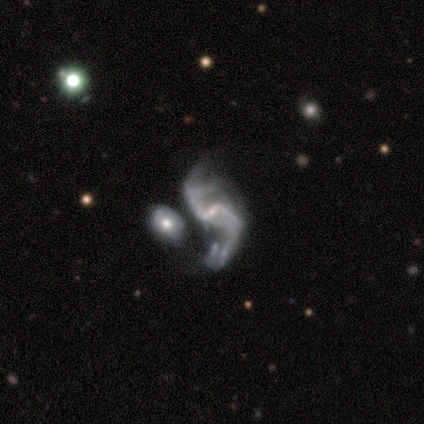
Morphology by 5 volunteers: A featured or disk galaxy (100%) with no bar (75%), 2 (75%) medium (50%) spiral arms (100%) and a small central bulge (75%).

Vote fractions:
- Smooth or featured? featured or disk: 100% / smooth: 0% / star or artifact: 0%
- Edge-on disk? no: 80% / yes: 20%
- Bar? no: 75% / weak: 25% / strong: 0%
- Spiral arms? yes: 100% / no: 0%
- Spiral winding? medium: 50% / tight: 25% / loose: 25%
- Spiral arm count? 2: 75% / can't tell: 25% / 1: 0% / 3: 0% / 4: 0% / more than 4: 0%
- Bulge size? small: 75% / moderate: 25% / dominant: 0% / large: 0% / none: 0%
- Merging? merger: 60% / none: 20% / minor disturbance: 20% / major disturbance: 0%